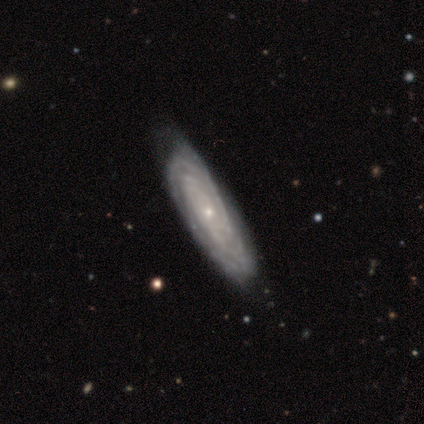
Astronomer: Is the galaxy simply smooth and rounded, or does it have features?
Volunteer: featured or disk — 100%.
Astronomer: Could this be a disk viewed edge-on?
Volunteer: no — 60% (runner-up: yes, 40%).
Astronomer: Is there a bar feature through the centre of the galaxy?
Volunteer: weak — 67%.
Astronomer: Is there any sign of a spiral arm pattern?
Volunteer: yes — 100%.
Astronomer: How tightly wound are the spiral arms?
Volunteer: tight — 100%.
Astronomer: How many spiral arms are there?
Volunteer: can't tell — 67%.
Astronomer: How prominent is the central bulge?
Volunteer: small — 67%.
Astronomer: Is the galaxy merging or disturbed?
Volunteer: none — 100%.